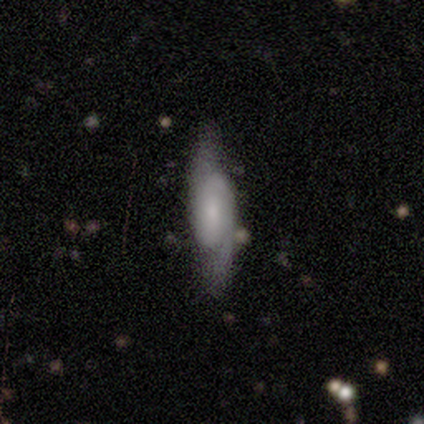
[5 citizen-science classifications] This appears to be a featured or disk galaxy (60%) with a strong bar (50%, tied with no), 2 (50%, tied with can't tell) medium (100%) spiral arms (100%) and a moderate central bulge (50%, tied with none). Merging: none (60%).